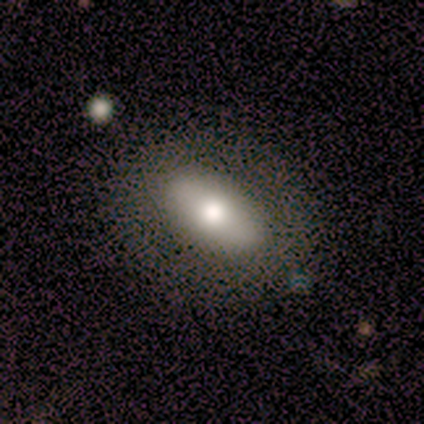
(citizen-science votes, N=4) Smooth or featured: smooth — 75% (featured or disk — 25%)
How rounded: in between — 67% (round — 33%)
Merging: none — 100%